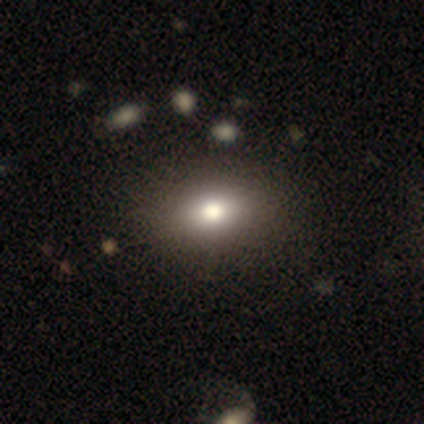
Overall: smooth (56%; featured or disk 22%). How rounded: in between (100%). Merging: none (100%).